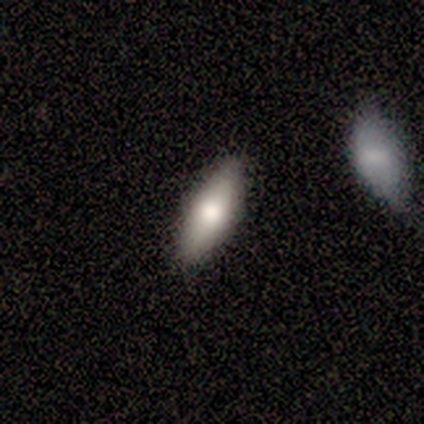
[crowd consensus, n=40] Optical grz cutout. It shows a smooth galaxy with no disk features (68%) that is in between round and cigar-shaped (56%). Merging: none (92%).